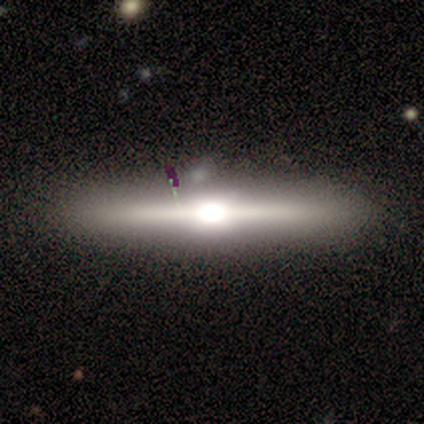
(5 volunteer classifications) Morphology: type=smooth (40%, tied with star or artifact); roundness=cigar-shaped (100%); merging=none (67%).